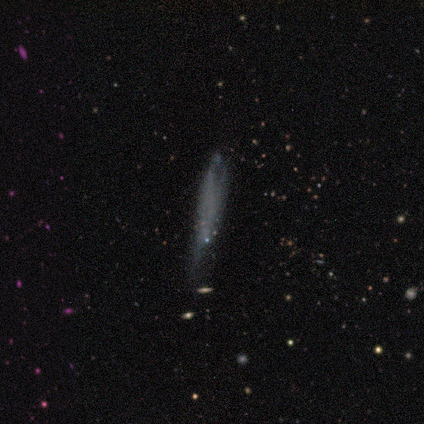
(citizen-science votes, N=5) Q: Smooth or featured?
A: smooth (60%); runner-up: featured or disk (40%)
Q: How rounded?
A: cigar-shaped (100%)
Q: Merging?
A: none (40%); tied with: minor disturbance (40%)